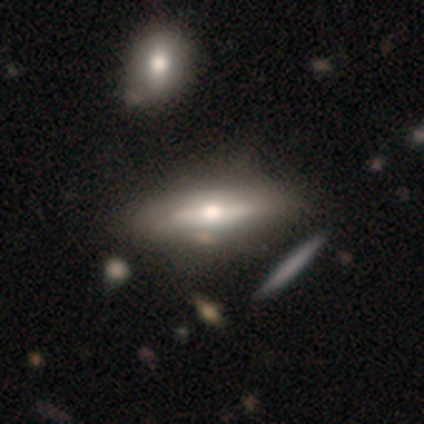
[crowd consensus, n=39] Morphology: type=featured or disk (69%); edge-on=yes (67%); edge-on bulge=rounded (100%); merging=none (44%).